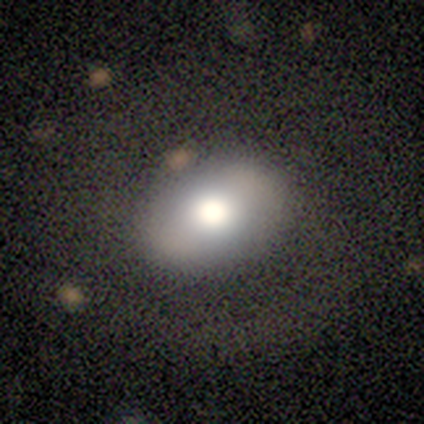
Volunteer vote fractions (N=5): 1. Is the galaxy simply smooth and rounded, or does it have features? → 80% smooth, 20% star or artifact, 0% featured or disk.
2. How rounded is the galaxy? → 100% in between, 0% round, 0% cigar-shaped.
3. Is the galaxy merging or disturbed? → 75% none, 25% major disturbance, 0% minor disturbance, 0% merger.